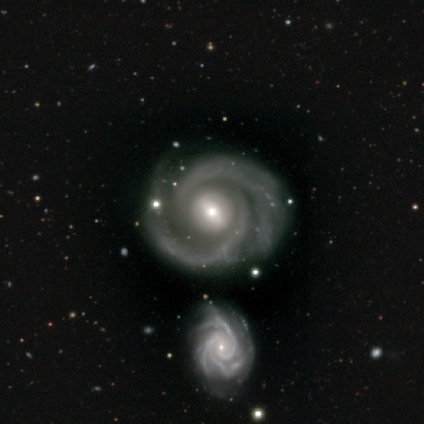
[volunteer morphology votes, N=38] Volunteers were most divided on "bar": weak: 47%, no: 34%, strong: 18%. More confident: smooth or featured — featured or disk (100%); edge-on disk — no (100%); spiral arms — yes (100%); spiral arm count — 2 (82%); spiral winding — tight (71%); bulge size — moderate (55%); merging — none (55%).